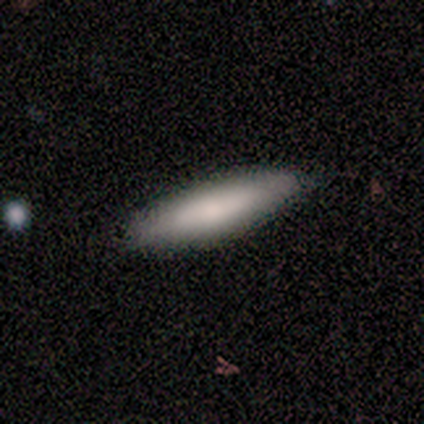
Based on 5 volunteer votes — Morphology: type=smooth (100%); roundness=cigar-shaped (80%); merging=none (80%).